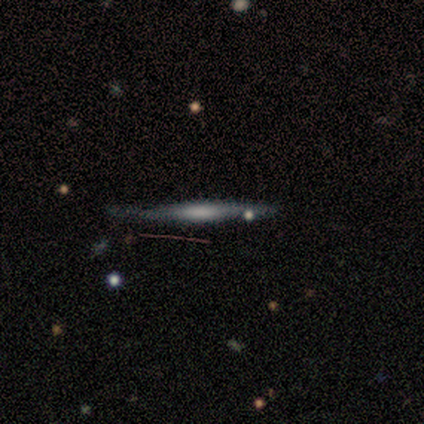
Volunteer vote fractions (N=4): Smooth or featured? featured or disk (100%)
Edge-on disk? yes (100%)
Edge-on bulge? none (75%)
Merging? none (75%)